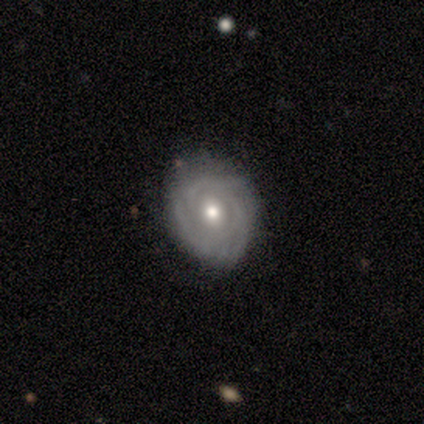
Smooth or featured? 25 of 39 (64%) said featured or disk. Edge-on disk? 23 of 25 (92%) said no. Bar? 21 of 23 (91%) said no. Spiral arms? 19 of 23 (83%) said yes. Spiral winding? 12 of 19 (63%) said tight. Spiral arm count? 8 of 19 (42%) said 3. Bulge size? 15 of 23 (65%) said moderate. Merging? 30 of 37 (81%) said none.